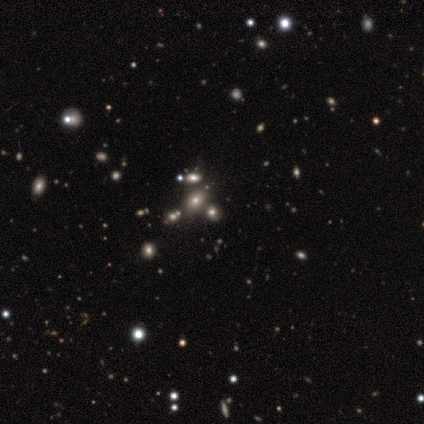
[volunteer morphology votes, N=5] type=smooth (40%, tied with featured or disk); roundness=round (50%, tied with in between); merging=none (100%).